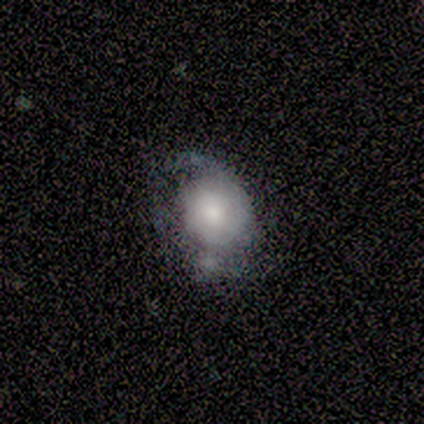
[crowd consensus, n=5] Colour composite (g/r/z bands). It shows a featured or disk galaxy (60%) with no bar (100%), 1 (50%, tied with 2) loose (100%) spiral arms (67%) and a small central bulge (67%). Merging: none (60%).